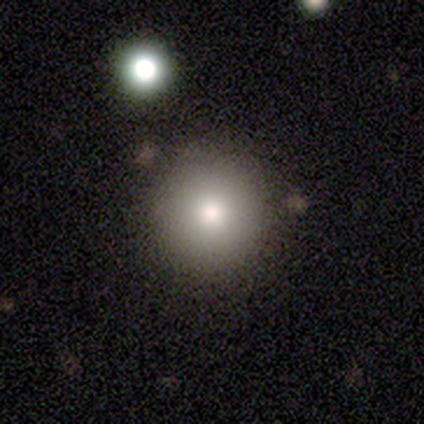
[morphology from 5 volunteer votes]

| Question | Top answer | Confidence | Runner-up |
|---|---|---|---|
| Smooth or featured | smooth | 80% | star or artifact (20%) |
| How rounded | round | 100% | — |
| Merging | none | 100% | — |